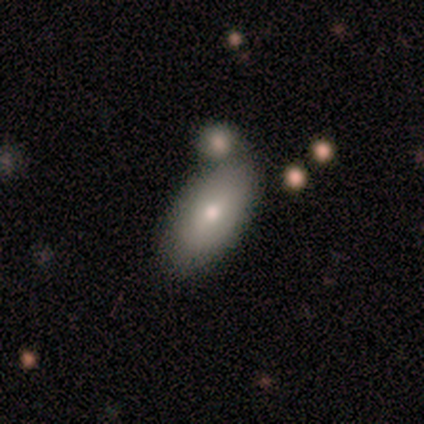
Morphology: type=smooth (80%); roundness=in between (100%); merging=none (60%).